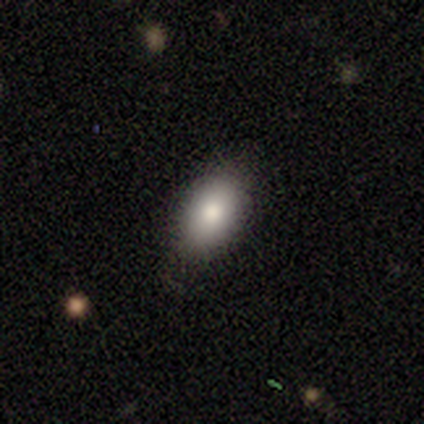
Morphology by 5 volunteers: type=smooth (100%); roundness=in between (100%); merging=none (100%).